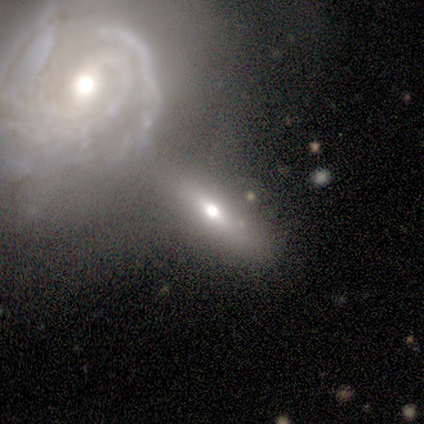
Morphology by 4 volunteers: A smooth galaxy with no disk features (50%, tied with featured or disk) that is round (50%, tied with cigar-shaped).

Vote fractions:
- Smooth or featured? smooth: 50% (tied) / featured or disk: 50% (tied) / star or artifact: 0%
- How rounded? round: 50% (tied) / cigar-shaped: 50% (tied) / in between: 0%
- Merging? none: 50% (tied) / merger: 50% (tied) / minor disturbance: 0% / major disturbance: 0%